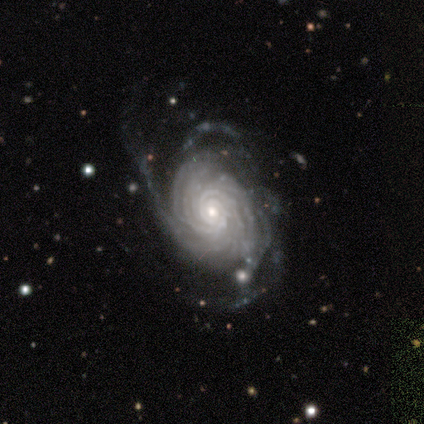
Smooth or featured? 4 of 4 (100%) said featured or disk. Edge-on disk? 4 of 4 (100%) said no. Bar? 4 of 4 (100%) said no. Spiral arms? 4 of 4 (100%) said yes. Spiral winding? 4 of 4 (100%) said tight. Spiral arm count? 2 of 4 (50%) said more than 4. Bulge size? 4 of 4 (100%) said small. Merging? 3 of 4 (75%) said none.